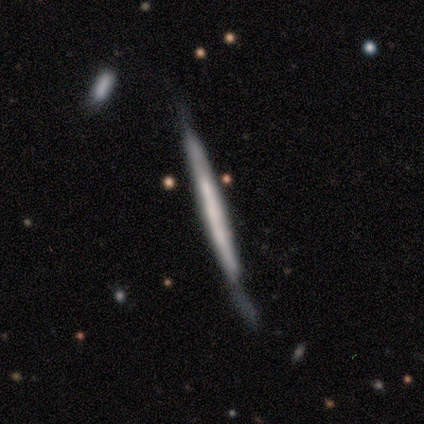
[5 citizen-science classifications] Morphology: type=smooth (80%); roundness=cigar-shaped (100%); merging=minor disturbance (60%).